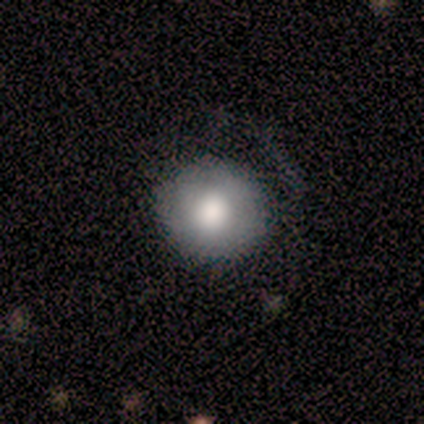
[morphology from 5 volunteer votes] This is clearly a smooth galaxy (100%). How rounded: clearly round (100%). Merging: marginally none (40%, tied with minor disturbance).